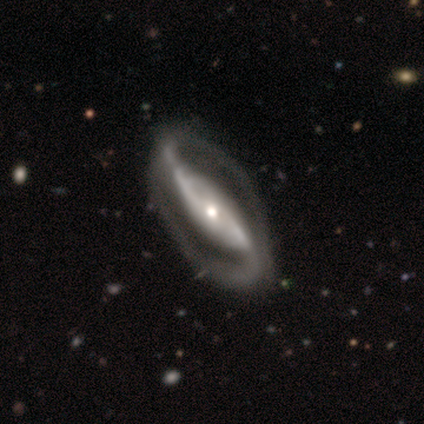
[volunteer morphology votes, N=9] Volunteers were most divided on "bar": strong: 57%, no: 43%, weak: 0%. More confident: spiral arm count — 2 (100%); smooth or featured — featured or disk (89%); edge-on disk — no (88%); spiral arms — yes (86%); merging — none (78%); spiral winding — medium (67%); bulge size — moderate (57%).